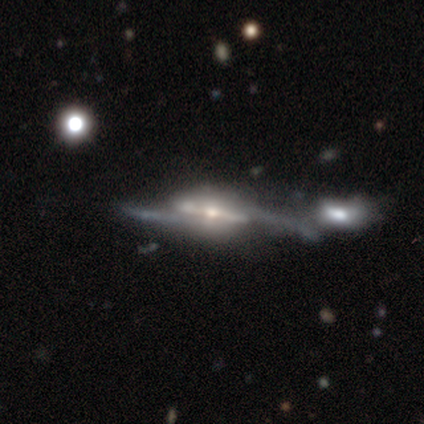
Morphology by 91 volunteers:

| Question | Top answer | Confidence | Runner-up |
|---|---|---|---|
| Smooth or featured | featured or disk | 88% | smooth (7%) |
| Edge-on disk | no | 59% | yes (41%) |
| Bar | strong | 60% | no (28%) |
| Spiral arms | yes | 85% | no (15%) |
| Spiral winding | loose | 55% | medium (38%) |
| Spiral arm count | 2 | 80% | can't tell (18%) |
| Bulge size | small | 45% | moderate (43%) |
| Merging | merger | 40% | none (28%) |